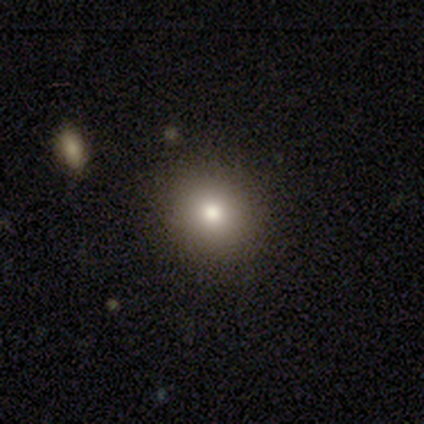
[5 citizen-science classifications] Volunteers were most divided on "smooth or featured": smooth: 60%, featured or disk: 20%, star or artifact: 20%. More confident: how rounded — round (100%); merging — none (100%).